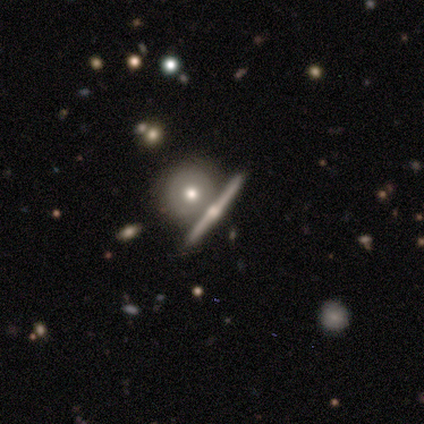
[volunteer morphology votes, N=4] A featured or disk galaxy (100%) viewed edge-on (100%) with a rounded central bulge (100%).

Vote fractions:
- Smooth or featured? featured or disk: 100% / smooth: 0% / star or artifact: 0%
- Edge-on disk? yes: 100% / no: 0%
- Edge-on bulge? rounded: 100% / boxy: 0% / none: 0%
- Merging? none: 50% (tied) / merger: 50% (tied) / minor disturbance: 0% / major disturbance: 0%